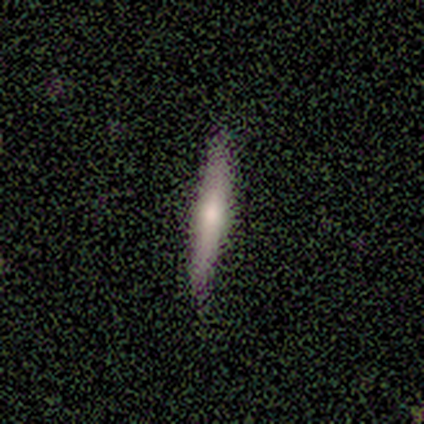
Overall: smooth (60%; featured or disk 40%). How rounded: cigar-shaped (67%; in between 33%). Merging: none (80%).